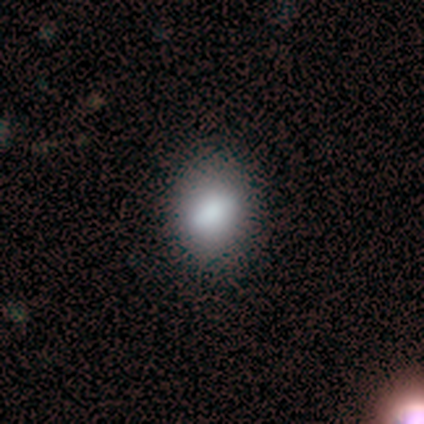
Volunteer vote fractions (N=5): Overall: smooth (60%; featured or disk 40%). How rounded: round (67%; in between 33%). Merging: none (60%; minor disturbance 40%).